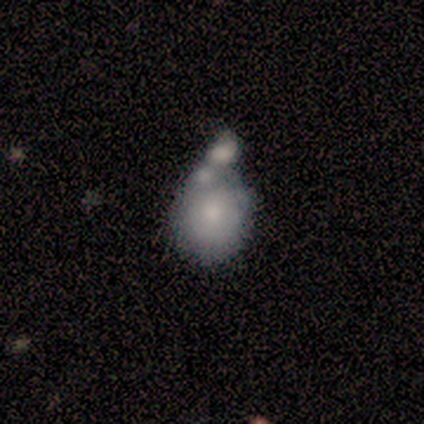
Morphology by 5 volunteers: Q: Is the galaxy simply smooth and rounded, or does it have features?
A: smooth — 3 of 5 (60%).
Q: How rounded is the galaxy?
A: round — 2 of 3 (67%).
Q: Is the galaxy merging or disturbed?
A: merger — 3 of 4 (75%).